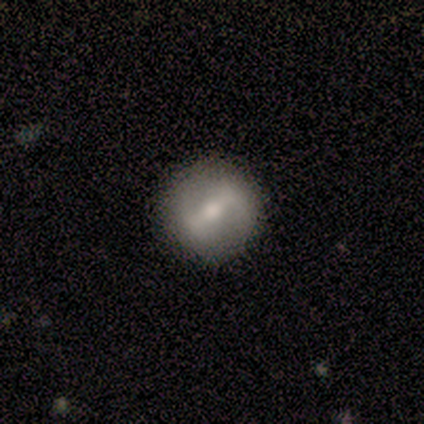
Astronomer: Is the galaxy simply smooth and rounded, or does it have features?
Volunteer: featured or disk — 78%.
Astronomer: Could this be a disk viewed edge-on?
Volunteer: no — 100%.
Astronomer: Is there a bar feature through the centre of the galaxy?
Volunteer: strong — 57% (runner-up: weak, 43%).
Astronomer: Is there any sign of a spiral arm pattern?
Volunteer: no — 57% (runner-up: yes, 43%).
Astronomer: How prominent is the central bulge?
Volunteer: moderate — 71%.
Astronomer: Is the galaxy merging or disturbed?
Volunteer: none — 100%.